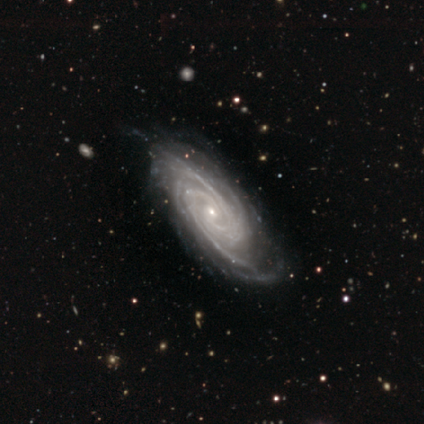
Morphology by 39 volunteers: Smooth or featured?
  - featured or disk: 87% *
  - smooth: 10%
  - star or artifact: 3%
Edge-on disk?
  - no: 91% *
  - yes: 9%
Bar?
  - no: 58% *
  - weak: 29%
  - strong: 13%
Spiral arms?
  - yes: 100% *
  - no: 0%
Spiral winding?
  - tight: 74% *
  - medium: 23%
  - loose: 3%
Spiral arm count?
  - 3: 39% *
  - more than 4: 19%
  - 2: 16%
  - 4: 16%
  - can't tell: 10%
  - 1: 0%
Bulge size?
  - small: 84% *
  - moderate: 16%
  - dominant: 0%
  - large: 0%
  - none: 0%
Merging?
  - none: 66% *
  - minor disturbance: 32%
  - merger: 3%
  - major disturbance: 0%